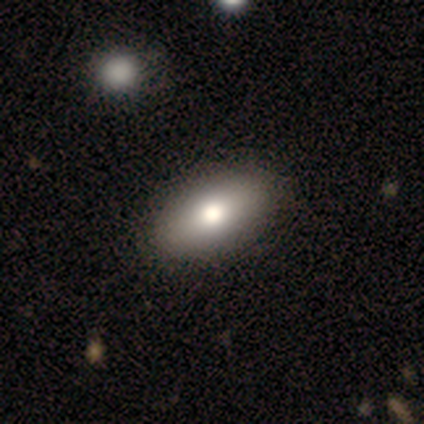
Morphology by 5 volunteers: A smooth galaxy with no disk features (80%) that is in between round and cigar-shaped (100%). Merging: none (100%).